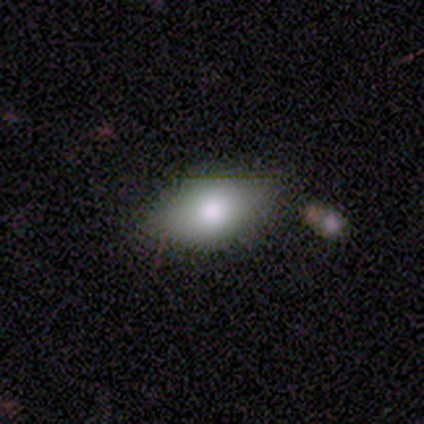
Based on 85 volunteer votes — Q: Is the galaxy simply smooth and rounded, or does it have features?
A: smooth — 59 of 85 (69%).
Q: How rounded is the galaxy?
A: in between — 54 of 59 (92%).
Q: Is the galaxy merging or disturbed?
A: none — 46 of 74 (62%).